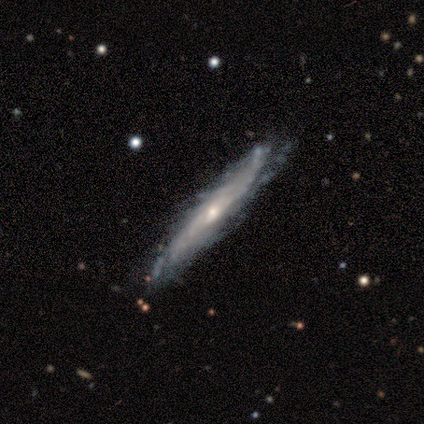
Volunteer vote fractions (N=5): Smooth or featured? 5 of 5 (100%) said featured or disk. Edge-on disk? 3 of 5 (60%) said no. Bar? 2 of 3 (67%) said no. Spiral arms? 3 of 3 (100%) said yes. Spiral winding? 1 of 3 (33%, tied with medium and loose) said tight. Spiral arm count? 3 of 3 (100%) said can't tell. Bulge size? 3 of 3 (100%) said small. Merging? 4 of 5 (80%) said none.